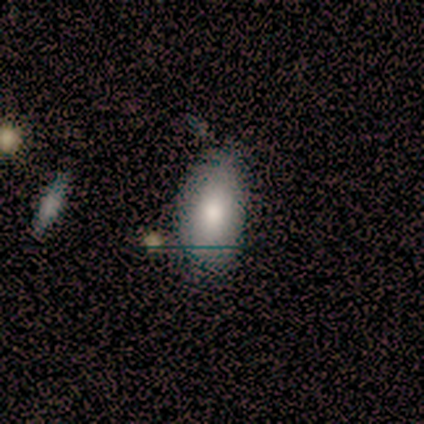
Overall: smooth (100%). How rounded: in between (100%). Merging: none (78%).